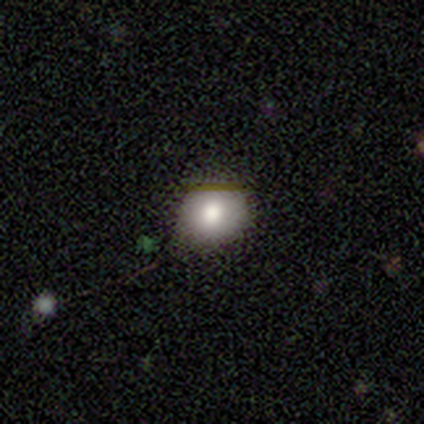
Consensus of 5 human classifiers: This appears to be a smooth galaxy with no disk features (100%) that is in between round and cigar-shaped (60%). Merging: none (100%).